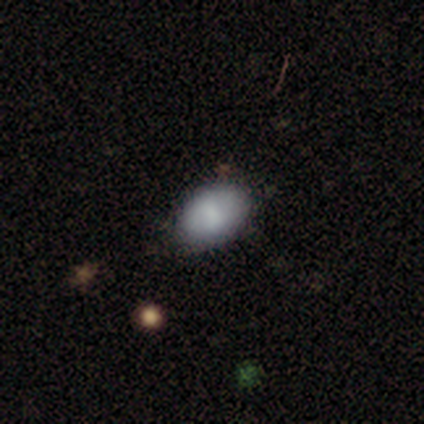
A smooth galaxy with no disk features (85%) that is in between round and cigar-shaped (82%).

Vote fractions:
- Smooth or featured? smooth: 85% / featured or disk: 8% / star or artifact: 8%
- How rounded? in between: 82% / round: 18% / cigar-shaped: 0%
- Merging? none: 92% / major disturbance: 8% / minor disturbance: 0% / merger: 0%